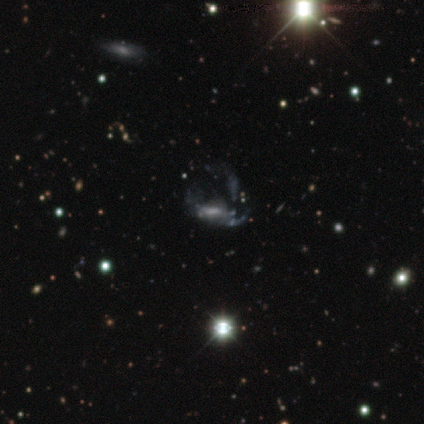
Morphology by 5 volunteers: Smooth or featured? featured or disk (60%)
Edge-on disk? no (100%)
Bar? weak (67%)
Spiral arms? yes (67%)
Spiral winding? loose (100%)
Spiral arm count? 3 (50%, tied with can't tell)
Bulge size? small (67%)
Merging? none (25%, tied with minor disturbance, major disturbance and merger)